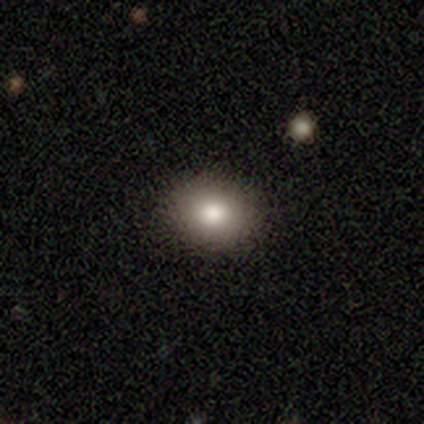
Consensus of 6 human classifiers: smooth-or-featured: smooth: 67% | star or artifact: 33% | featured or disk: 0%
  how-rounded: round: 75% | in between: 25% | cigar-shaped: 0%
  merging: none: 100% | minor disturbance: 0% | major disturbance: 0% | merger: 0%